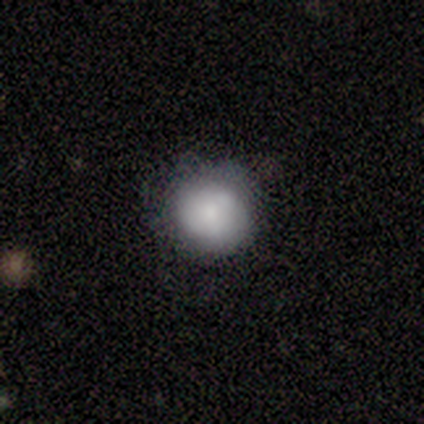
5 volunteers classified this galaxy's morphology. type=smooth (80%); roundness=round (75%); merging=minor disturbance (60%).